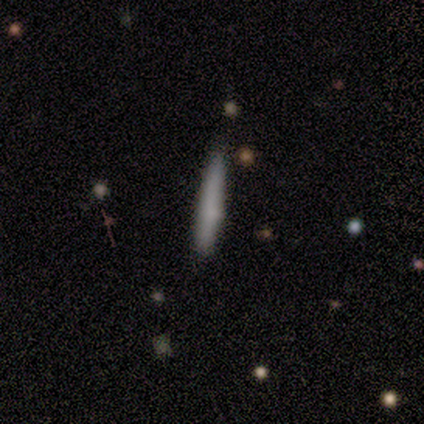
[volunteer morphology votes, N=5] Smooth or featured? smooth (100%)
How rounded? cigar-shaped (100%)
Merging? none (80%)